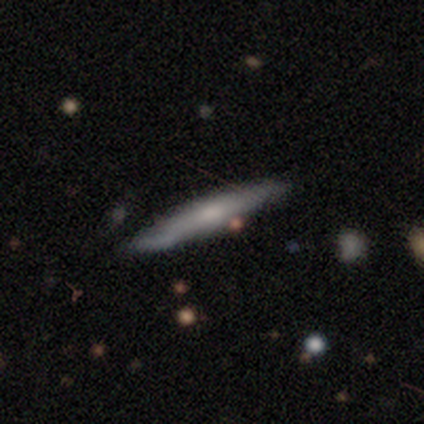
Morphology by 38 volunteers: A smooth galaxy with no disk features (68%) that is cigar-shaped (100%). Merging: none (43%).